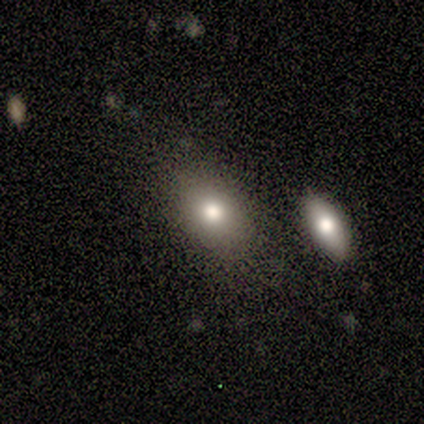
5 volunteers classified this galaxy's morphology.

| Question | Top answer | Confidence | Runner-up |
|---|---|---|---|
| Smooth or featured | smooth | 80% | featured or disk (20%) |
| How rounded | in between | 100% | — |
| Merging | none | 100% | — |